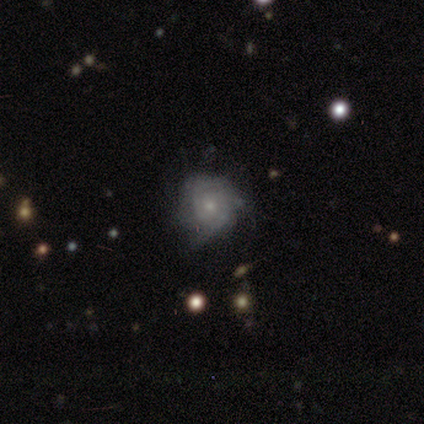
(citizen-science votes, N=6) smooth-or-featured: featured or disk: 100% | smooth: 0% | star or artifact: 0%
  disk-edge-on: no: 100% | yes: 0%
    bar: no: 100% | strong: 0% | weak: 0%
    has-spiral-arms: yes: 67% | no: 33%
      spiral-winding: medium: 75% | tight: 25% | loose: 0%
      spiral-arm-count: can't tell: 75% | 2: 25% | 1: 0% | 3: 0% | 4: 0% | more than 4: 0%
    bulge-size: small: 83% | moderate: 17% | dominant: 0% | large: 0% | none: 0%
  merging: none: 67% | minor disturbance: 17% | major disturbance: 17% | merger: 0%